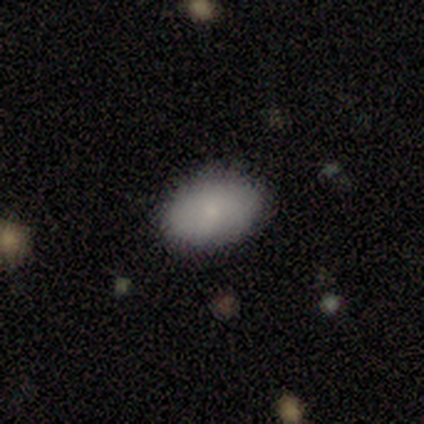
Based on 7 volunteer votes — A smooth galaxy with no disk features (100%) that is in between round and cigar-shaped (86%). Merging: none (86%).